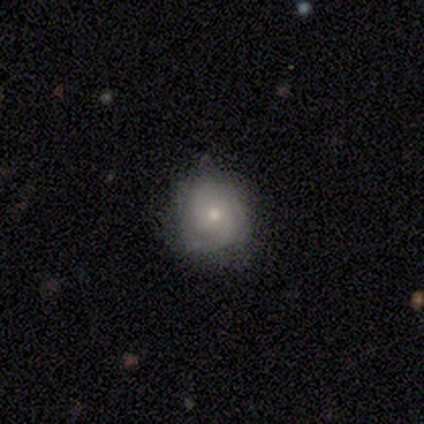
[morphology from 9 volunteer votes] A featured or disk galaxy (78%) with no bar (71%), 2 (40%, tied with can't tell) tight (100%) spiral arms (71%) and a small central bulge (57%).

Vote fractions:
- Smooth or featured? featured or disk: 78% / smooth: 11% / star or artifact: 11%
- Edge-on disk? no: 100% / yes: 0%
- Bar? no: 71% / weak: 29% / strong: 0%
- Spiral arms? yes: 71% / no: 29%
- Spiral winding? tight: 100% / medium: 0% / loose: 0%
- Spiral arm count? 2: 40% (tied) / can't tell: 40% (tied) / 4: 20% / 1: 0% / 3: 0% / more than 4: 0%
- Bulge size? small: 57% / moderate: 29% / none: 14% / dominant: 0% / large: 0%
- Merging? none: 50% (tied) / minor disturbance: 50% (tied) / major disturbance: 0% / merger: 0%